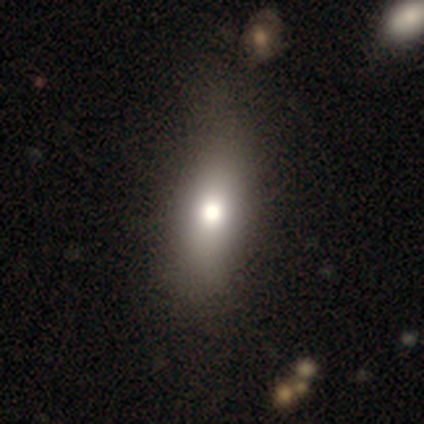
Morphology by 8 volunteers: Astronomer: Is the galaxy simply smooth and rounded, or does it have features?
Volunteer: smooth — 88%.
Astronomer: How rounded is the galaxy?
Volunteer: in between — 43% (runner-up: round, 29%).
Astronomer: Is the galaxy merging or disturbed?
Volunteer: none — 75%.